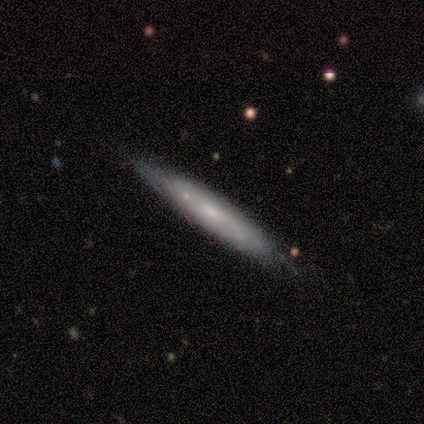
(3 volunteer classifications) Morphology: type=smooth (67%); roundness=cigar-shaped (100%); merging=none (67%).